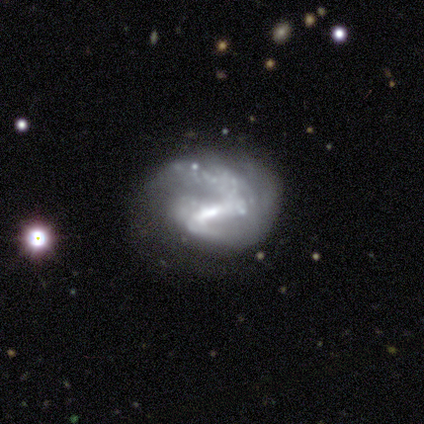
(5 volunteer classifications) Smooth or featured? featured or disk (60%)
Edge-on disk? no (100%)
Bar? strong (100%)
Spiral arms? yes (100%)
Spiral winding? loose (100%)
Spiral arm count? 2 (67%)
Bulge size? moderate (67%)
Merging? none (67%)